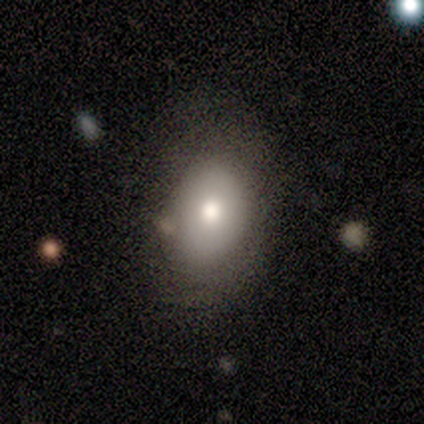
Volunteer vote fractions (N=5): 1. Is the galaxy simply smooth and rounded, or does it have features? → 100% smooth, 0% featured or disk, 0% star or artifact.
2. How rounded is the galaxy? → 100% in between, 0% round, 0% cigar-shaped.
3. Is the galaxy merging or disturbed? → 60% none, 20% major disturbance, 20% merger, 0% minor disturbance.